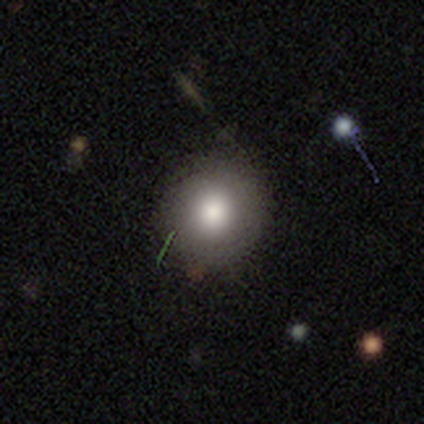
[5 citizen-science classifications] smooth_or_featured: smooth (p=1.00)
how_rounded: round (p=1.00)
merging: none (p=1.00)